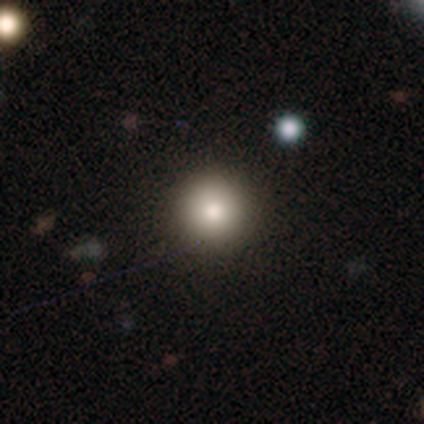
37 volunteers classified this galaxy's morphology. smooth_or_featured: smooth (p=0.73) [alt: star or artifact p=0.16]
how_rounded: round (p=0.96) [alt: in between p=0.04]
merging: none (p=0.90) [alt: minor disturbance p=0.10]